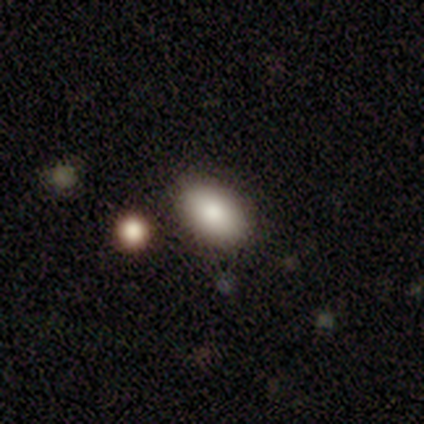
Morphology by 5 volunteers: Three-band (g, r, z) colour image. It shows a smooth galaxy with no disk features (80%) that is in between round and cigar-shaped (75%). Merging: none (75%).